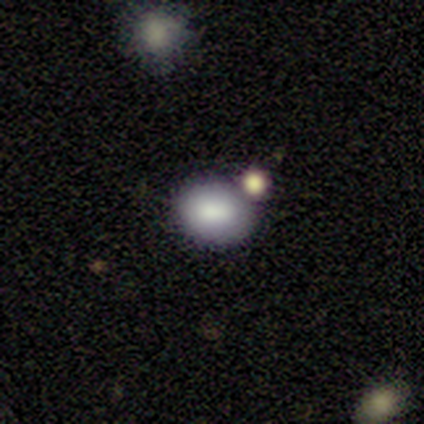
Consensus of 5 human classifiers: A smooth galaxy with no disk features (100%) that is in between round and cigar-shaped (80%).

Vote fractions:
- Smooth or featured? smooth: 100% / featured or disk: 0% / star or artifact: 0%
- How rounded? in between: 80% / round: 20% / cigar-shaped: 0%
- Merging? none: 80% / merger: 20% / minor disturbance: 0% / major disturbance: 0%